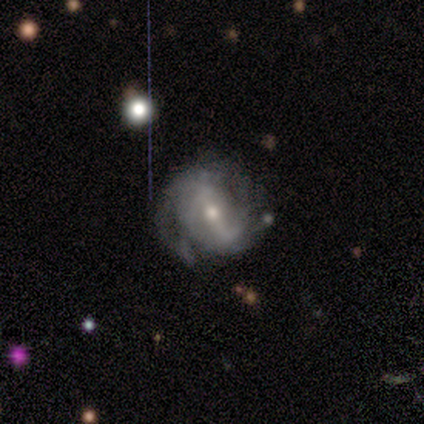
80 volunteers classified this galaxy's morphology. Smooth or featured? 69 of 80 (86%) said featured or disk. Edge-on disk? 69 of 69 (100%) said no. Bar? 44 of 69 (64%) said strong. Spiral arms? 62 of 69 (90%) said yes. Spiral winding? 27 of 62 (44%) said tight. Spiral arm count? 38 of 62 (61%) said 2. Bulge size? 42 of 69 (61%) said moderate. Merging? 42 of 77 (55%) said none.